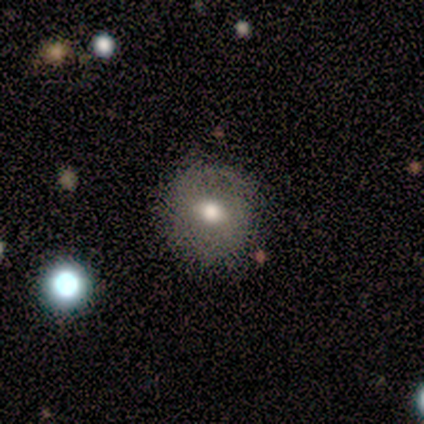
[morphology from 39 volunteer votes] Smooth or featured?
  - smooth: 64% *
  - featured or disk: 26%
  - star or artifact: 10%
How rounded?
  - round: 92% *
  - in between: 8%
  - cigar-shaped: 0%
Merging?
  - none: 80% *
  - minor disturbance: 14%
  - major disturbance: 3%
  - merger: 3%